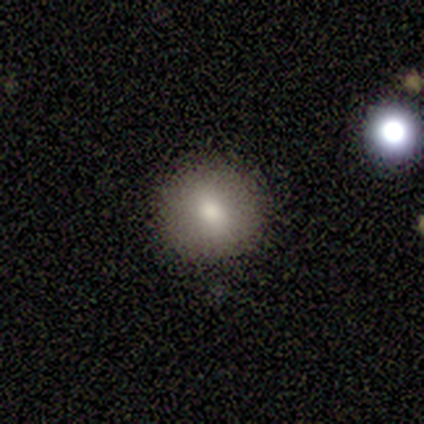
Q: Smooth or featured?
A: smooth (80%); runner-up: star or artifact (20%)
Q: How rounded?
A: round (75%); runner-up: in between (25%)
Q: Merging?
A: none (75%); runner-up: minor disturbance (25%)